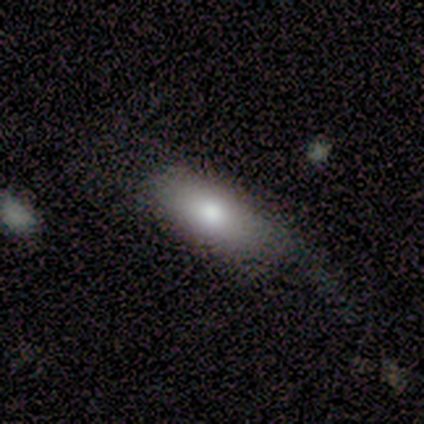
A smooth galaxy with no disk features (80%) that is in between round and cigar-shaped (100%).

Vote fractions:
- Smooth or featured? smooth: 80% / star or artifact: 20% / featured or disk: 0%
- How rounded? in between: 100% / round: 0% / cigar-shaped: 0%
- Merging? none: 75% / minor disturbance: 25% / major disturbance: 0% / merger: 0%